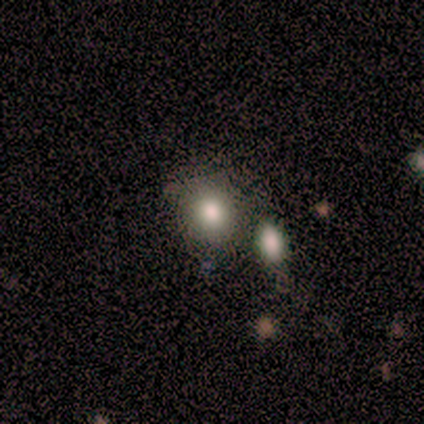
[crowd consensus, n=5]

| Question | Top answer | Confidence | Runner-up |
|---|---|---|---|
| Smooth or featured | star or artifact | 60% | smooth (40%) |